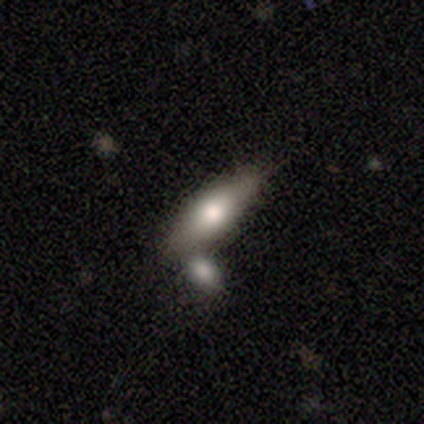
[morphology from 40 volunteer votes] Overall: smooth (57%; featured or disk 32%). How rounded: in between (65%). Merging: none (58%; merger 31%).